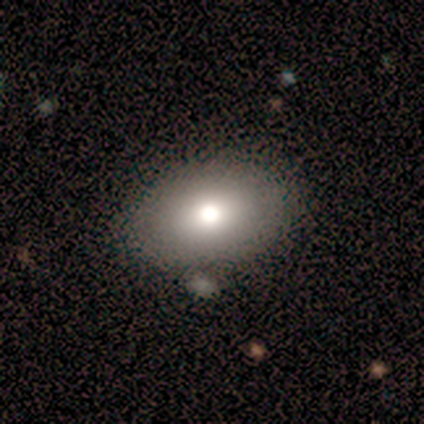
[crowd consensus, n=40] A smooth galaxy with no disk features (85%) that is in between round and cigar-shaped (76%).

Vote fractions:
- Smooth or featured? smooth: 85% / featured or disk: 8% / star or artifact: 8%
- How rounded? in between: 76% / round: 24% / cigar-shaped: 0%
- Merging? none: 84% / minor disturbance: 11% / major disturbance: 3% / merger: 3%